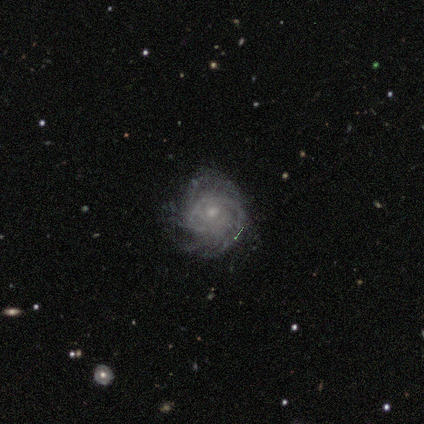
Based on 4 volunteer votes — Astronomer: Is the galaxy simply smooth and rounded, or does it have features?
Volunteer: featured or disk — 100%.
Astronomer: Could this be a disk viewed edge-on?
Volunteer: no — 100%.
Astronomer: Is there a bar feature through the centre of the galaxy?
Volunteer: no — 75%.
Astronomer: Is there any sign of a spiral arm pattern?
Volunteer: yes — 100%.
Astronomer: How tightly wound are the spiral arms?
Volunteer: medium — 50%.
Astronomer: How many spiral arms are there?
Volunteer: can't tell — 100%.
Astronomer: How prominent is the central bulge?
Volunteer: small — 100%.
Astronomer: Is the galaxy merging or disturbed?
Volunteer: none — 50%, tied with minor disturbance at 50%.